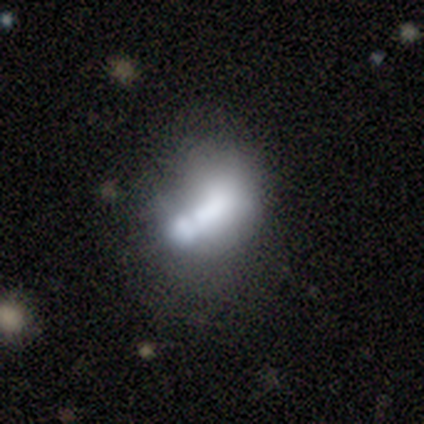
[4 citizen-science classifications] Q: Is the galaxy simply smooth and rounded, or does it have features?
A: smooth — 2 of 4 (50%).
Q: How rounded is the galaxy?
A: round — 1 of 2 (50%, tied with in between).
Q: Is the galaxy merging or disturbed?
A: merger — 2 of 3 (67%).